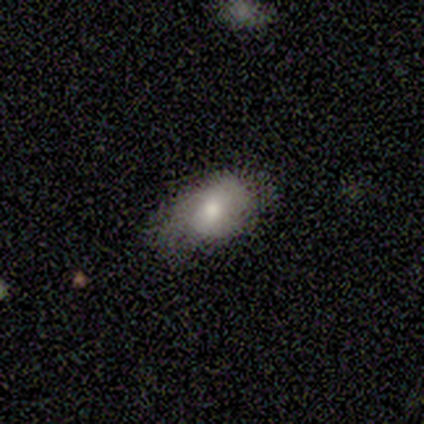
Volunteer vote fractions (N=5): smooth 60%, featured or disk 40%, star or artifact 0%. Down the decision tree: how rounded — in between (100%); merging — minor disturbance (60%).